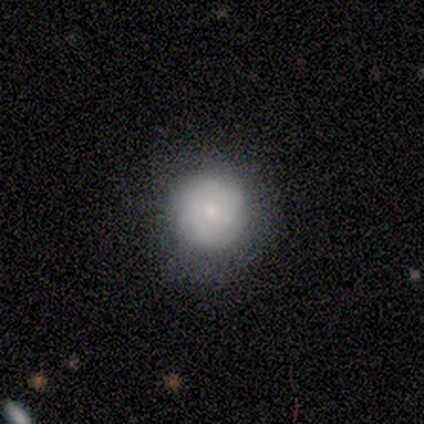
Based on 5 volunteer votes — Q: Smooth or featured?
A: smooth (60%); runner-up: featured or disk (20%)
Q: How rounded?
A: round (100%)
Q: Merging?
A: none (100%)